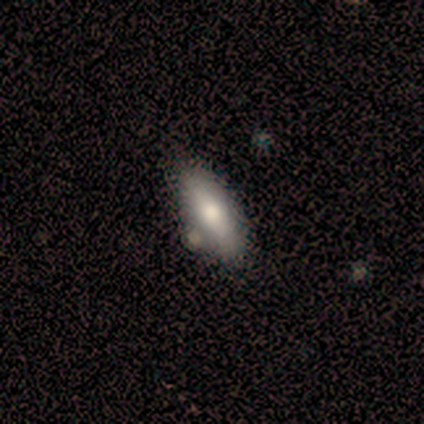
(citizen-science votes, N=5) smooth_or_featured: smooth (p=0.80) [alt: star or artifact p=0.20]
how_rounded: in between (p=0.75) [alt: cigar-shaped p=0.25]
merging: none (p=0.75) [alt: minor disturbance p=0.25]